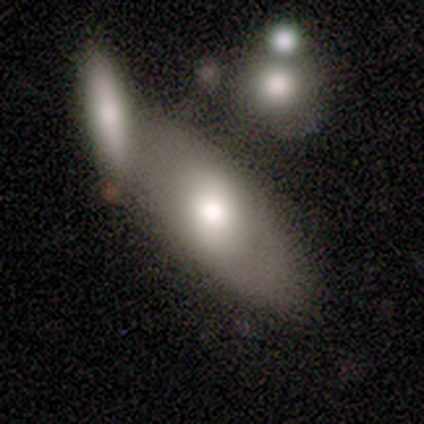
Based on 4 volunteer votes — Smooth or featured?
  - smooth: 100% *
  - featured or disk: 0%
  - star or artifact: 0%
How rounded?
  - in between: 75% *
  - cigar-shaped: 25%
  - round: 0%
Merging?
  - merger: 75% *
  - none: 25%
  - minor disturbance: 0%
  - major disturbance: 0%